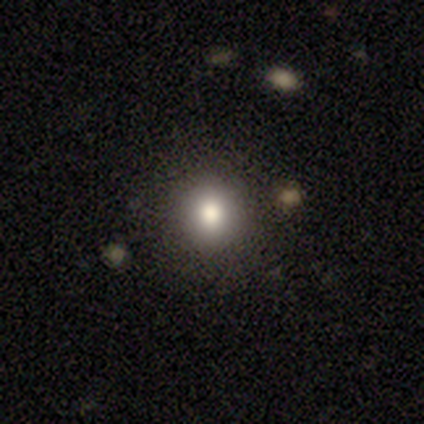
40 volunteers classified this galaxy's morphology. smooth-or-featured: smooth: 65% | star or artifact: 25% | featured or disk: 10%
  how-rounded: round: 92% | in between: 8% | cigar-shaped: 0%
  merging: none: 93% | minor disturbance: 3% | merger: 3% | major disturbance: 0%